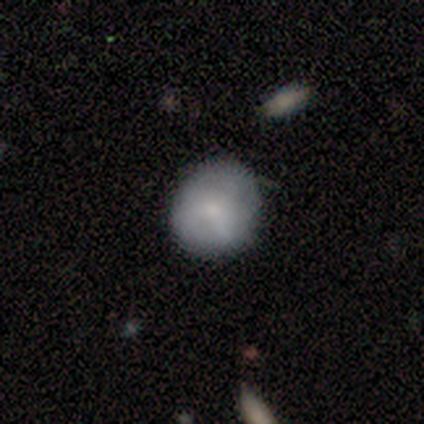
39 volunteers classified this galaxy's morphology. This is likely a smooth galaxy (77%). How rounded: clearly round (90%). Merging: likely none (68%).